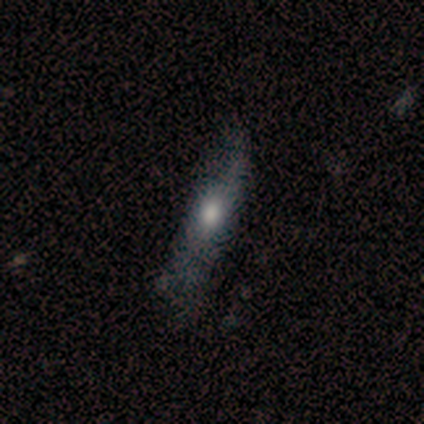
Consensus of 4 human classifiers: smooth-or-featured: featured or disk: 75% | smooth: 25% | star or artifact: 0%
  disk-edge-on: no: 100% | yes: 0%
    bar: no: 100% | strong: 0% | weak: 0%
    has-spiral-arms: yes: 67% | no: 33%
      spiral-winding: loose: 100% | tight: 0% | medium: 0%
      spiral-arm-count: 2: 100% | 1: 0% | 3: 0% | 4: 0% | more than 4: 0% | can't tell: 0%
    bulge-size: moderate: 100% | dominant: 0% | large: 0% | small: 0% | none: 0%
  merging: minor disturbance: 75% | none: 25% | major disturbance: 0% | merger: 0%